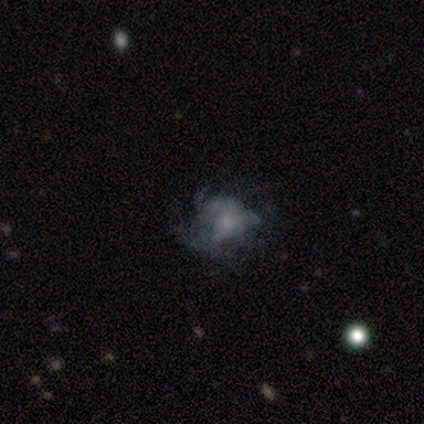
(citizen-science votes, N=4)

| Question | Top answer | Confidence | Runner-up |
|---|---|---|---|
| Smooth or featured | smooth | 50% | tied: featured or disk (50%) |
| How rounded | in between | 50% | tied: cigar-shaped (50%) |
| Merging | none | 75% | merger (25%) |